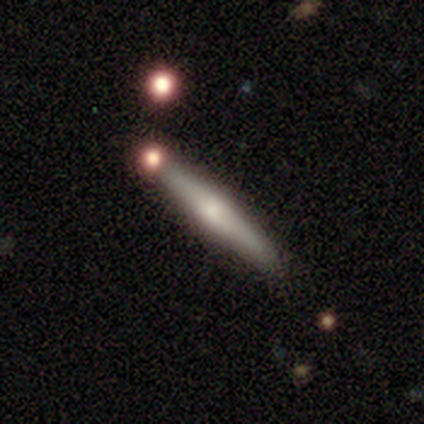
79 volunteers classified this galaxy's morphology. Smooth or featured: featured or disk — 51% (smooth — 48%)
Edge-on disk: yes — 100%
Edge-on bulge: rounded — 78% (boxy — 12%)
Merging: none — 41% (merger — 10%)